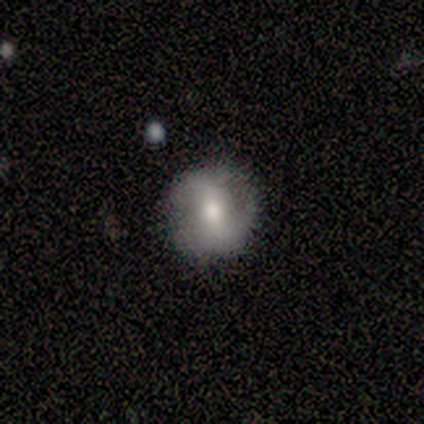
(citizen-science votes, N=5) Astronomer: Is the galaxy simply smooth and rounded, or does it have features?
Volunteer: smooth — 60% (runner-up: featured or disk, 40%).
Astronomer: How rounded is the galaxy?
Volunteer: round — 67%.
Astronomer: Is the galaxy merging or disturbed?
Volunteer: none — 80%.